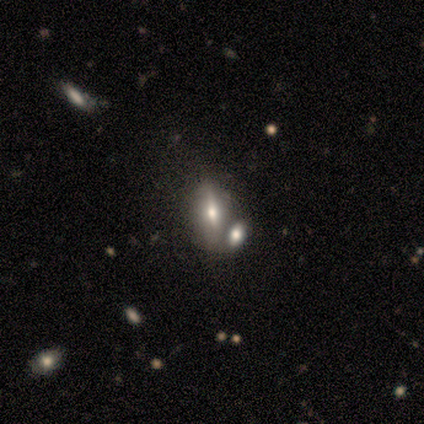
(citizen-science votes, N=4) Volunteers were most divided on "smooth or featured": star or artifact: 50%, smooth: 25%, featured or disk: 25%.